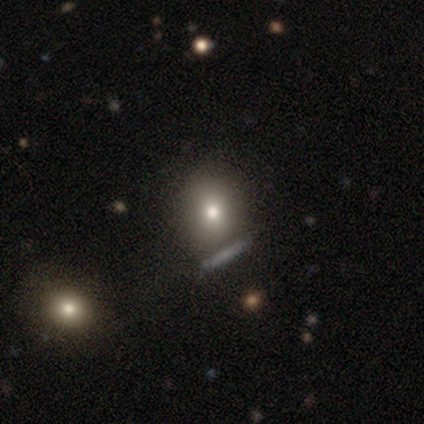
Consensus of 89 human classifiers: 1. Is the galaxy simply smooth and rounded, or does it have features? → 64% smooth, 21% featured or disk, 15% star or artifact.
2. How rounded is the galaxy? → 54% round, 42% in between, 4% cigar-shaped.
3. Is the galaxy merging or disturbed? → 68% none, 14% minor disturbance, 11% merger, 7% major disturbance.